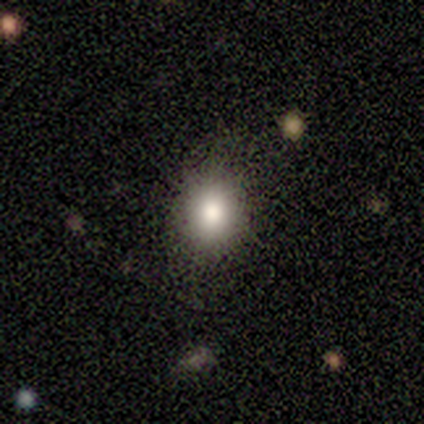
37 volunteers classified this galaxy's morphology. Smooth or featured: smooth — 84% (star or artifact — 11%)
How rounded: round — 74% (in between — 26%)
Merging: none — 85% (minor disturbance — 15%)